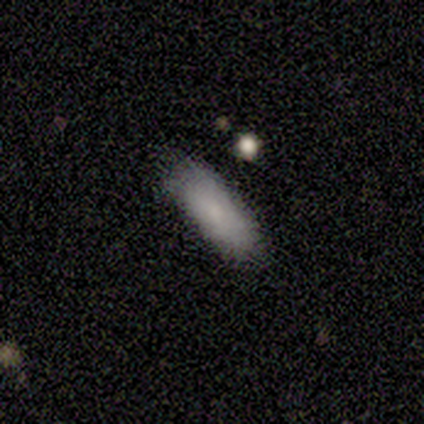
Overall: smooth (80%). How rounded: in between (50%, tied with cigar-shaped). Merging: none (100%).